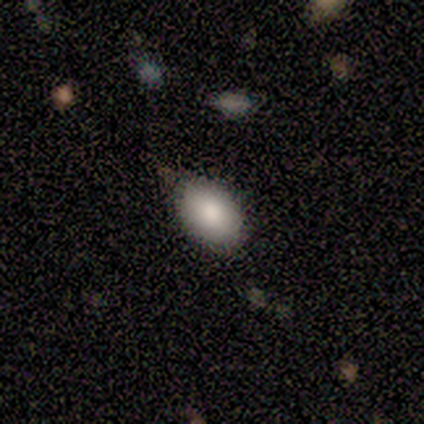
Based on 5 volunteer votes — This appears to be a smooth galaxy with no disk features (100%) that is in between round and cigar-shaped (80%). Merging: none (80%).